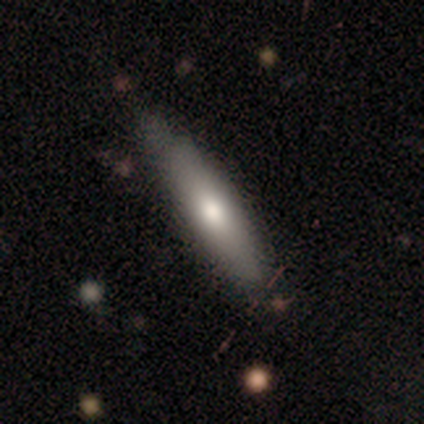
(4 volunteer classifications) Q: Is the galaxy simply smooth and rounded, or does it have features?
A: smooth — 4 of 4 (100%).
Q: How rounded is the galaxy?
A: cigar-shaped — 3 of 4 (75%).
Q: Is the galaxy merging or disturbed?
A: none — 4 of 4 (100%).